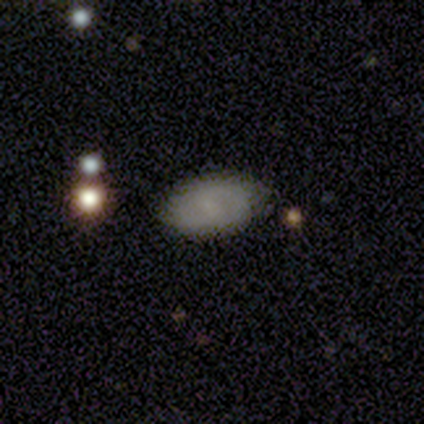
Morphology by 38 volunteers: Smooth or featured? 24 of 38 (63%) said smooth. How rounded? 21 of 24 (88%) said in between. Merging? 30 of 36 (83%) said none.